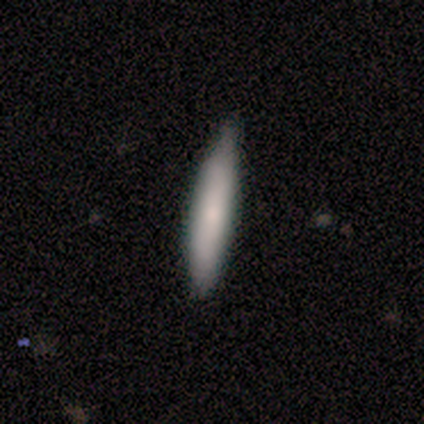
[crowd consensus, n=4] A smooth galaxy with no disk features (75%) that is cigar-shaped (100%). Merging: none (75%).